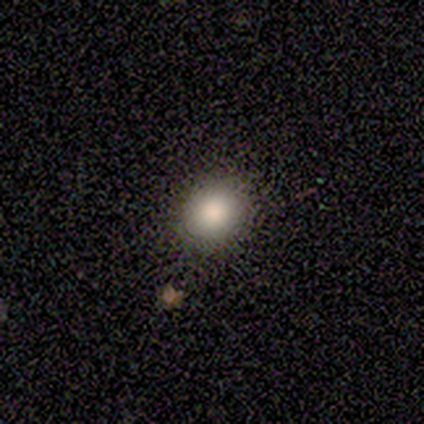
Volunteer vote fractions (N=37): Smooth or featured: smooth — 86% (star or artifact — 11%)
How rounded: round — 72% (in between — 25%)
Merging: none — 70% (minor disturbance — 6%)